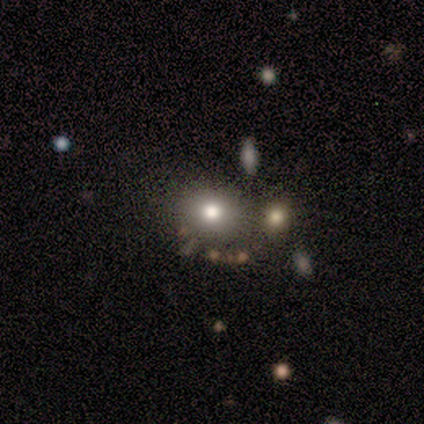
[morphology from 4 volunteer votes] smooth 75%, featured or disk 25%, star or artifact 0%. Down the decision tree: how rounded — round (67%); merging — none (75%).